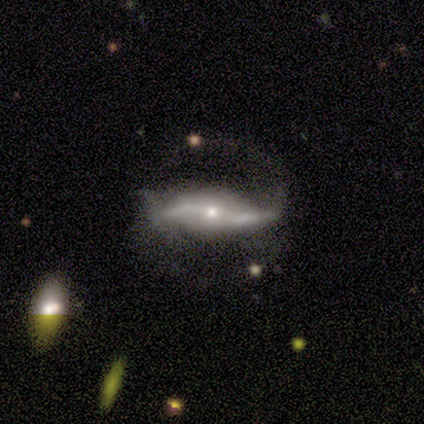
smooth-or-featured: featured or disk: 100% | smooth: 0% | star or artifact: 0%
  disk-edge-on: no: 80% | yes: 20%
    bar: weak: 50% (tied) | no: 50% (tied) | strong: 0%
    has-spiral-arms: yes: 100% | no: 0%
      spiral-winding: loose: 75% | medium: 25% | tight: 0%
      spiral-arm-count: 2: 100% | 1: 0% | 3: 0% | 4: 0% | more than 4: 0% | can't tell: 0%
    bulge-size: small: 75% | moderate: 25% | dominant: 0% | large: 0% | none: 0%
  merging: none: 60% | minor disturbance: 40% | major disturbance: 0% | merger: 0%